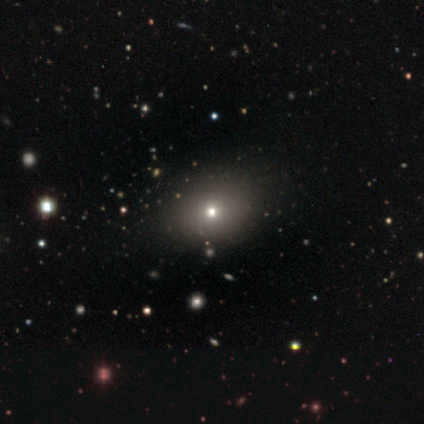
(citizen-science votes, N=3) A smooth galaxy with no disk features (33%, tied with featured or disk and star or artifact) that is in between round and cigar-shaped (100%). Merging: none (50%, tied with major disturbance).